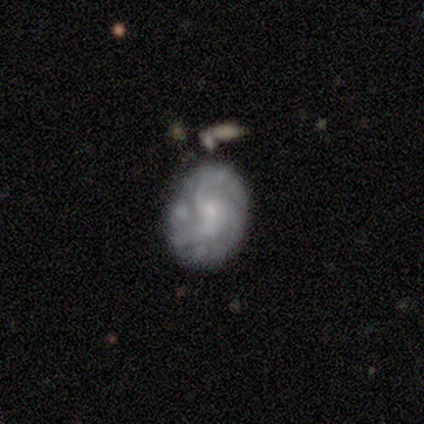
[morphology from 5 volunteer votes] Smooth or featured? featured or disk (100%)
Edge-on disk? no (100%)
Bar? no (60%)
Spiral arms? yes (100%)
Spiral winding? tight (40%, tied with medium)
Spiral arm count? can't tell (60%)
Bulge size? small (100%)
Merging? none (80%)